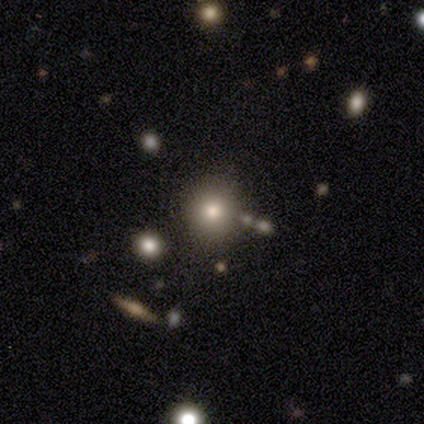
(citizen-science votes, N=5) A smooth galaxy with no disk features (80%) that is round (100%).

Vote fractions:
- Smooth or featured? smooth: 80% / featured or disk: 20% / star or artifact: 0%
- How rounded? round: 100% / in between: 0% / cigar-shaped: 0%
- Merging? none: 100% / minor disturbance: 0% / major disturbance: 0% / merger: 0%